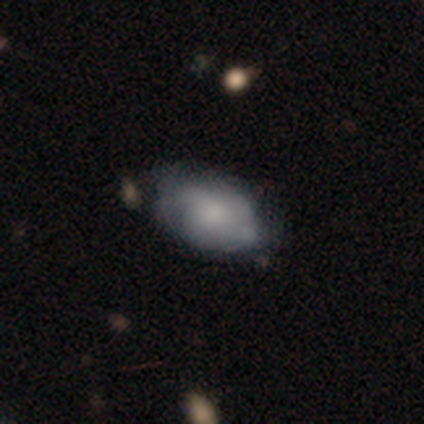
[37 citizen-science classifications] This is possibly a featured or disk galaxy (54%). It is clearly not viewed edge-on (100%). Bar: clearly no (80%). Spiral arm pattern: clearly no (85%). Central bulge: marginally none (40%). Merging: possibly none (59%).